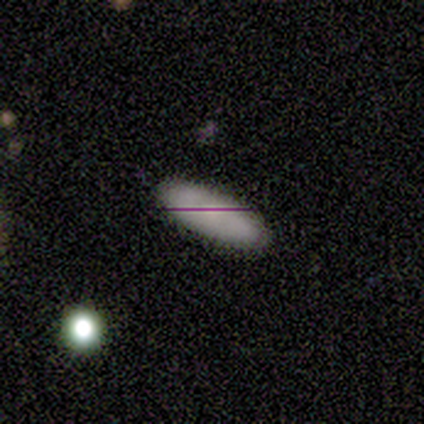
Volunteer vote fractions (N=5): smooth 60%, featured or disk 40%, star or artifact 0%. Down the decision tree: how rounded — in between (100%); merging — none (100%).